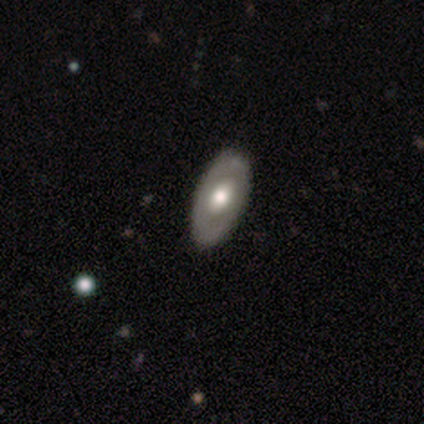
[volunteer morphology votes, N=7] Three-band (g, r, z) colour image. It shows a smooth galaxy with no disk features (57%) that is in between round and cigar-shaped (100%). Merging: none (71%).